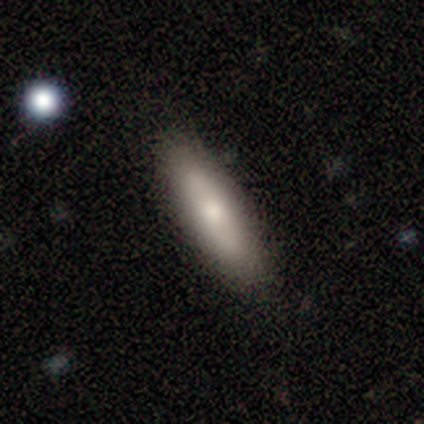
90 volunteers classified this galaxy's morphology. This appears to be a smooth galaxy with no disk features (66%) that is cigar-shaped (53%). Merging: none (79%).